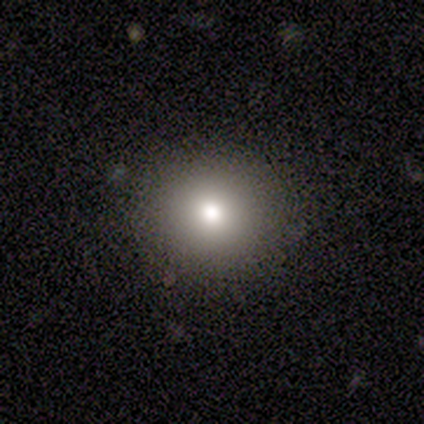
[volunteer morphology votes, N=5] Smooth or featured? 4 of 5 (80%) said smooth. How rounded? 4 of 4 (100%) said round. Merging? 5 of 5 (100%) said none.